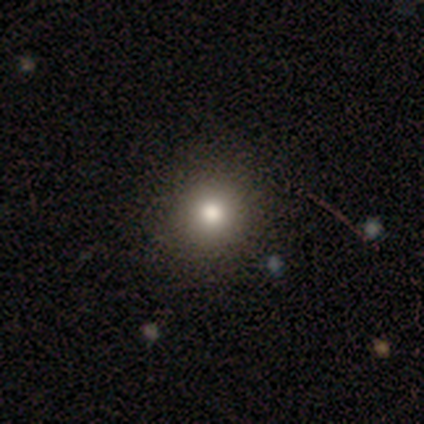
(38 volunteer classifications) This is clearly a smooth galaxy (84%). How rounded: clearly round (88%). Merging: clearly none (89%).